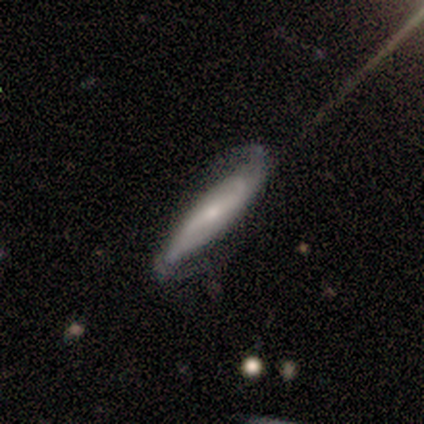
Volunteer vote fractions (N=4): Volunteers were most divided on "edge-on disk" (2-way tie): yes: 50%, no: 50%. More confident: smooth or featured — featured or disk (100%); edge-on bulge — rounded (100%); merging — none (75%).